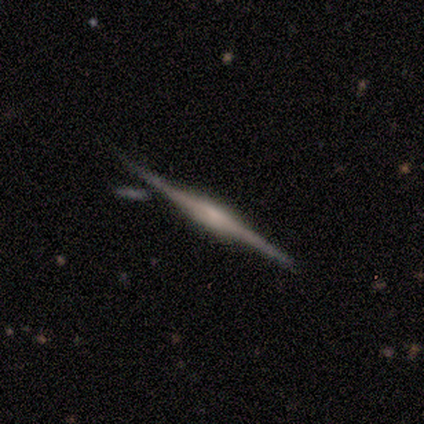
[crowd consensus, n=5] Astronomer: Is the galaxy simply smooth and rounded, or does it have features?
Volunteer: featured or disk — 100%.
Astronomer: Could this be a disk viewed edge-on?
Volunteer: yes — 100%.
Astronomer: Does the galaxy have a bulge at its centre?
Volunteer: boxy — 40%, tied with rounded at 40%.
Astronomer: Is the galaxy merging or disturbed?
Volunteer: none — 100%.